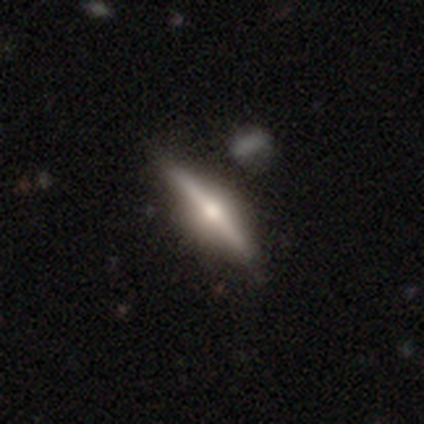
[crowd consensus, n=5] A featured or disk galaxy (80%) viewed edge-on (100%) with a rounded central bulge (100%). Merging: none (60%).